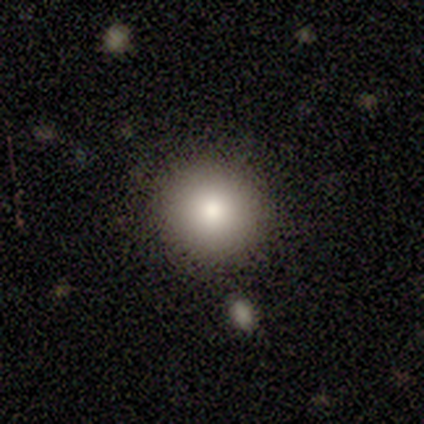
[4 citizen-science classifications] This appears to be a smooth galaxy with no disk features (75%) that is round (100%). Merging: none (100%).